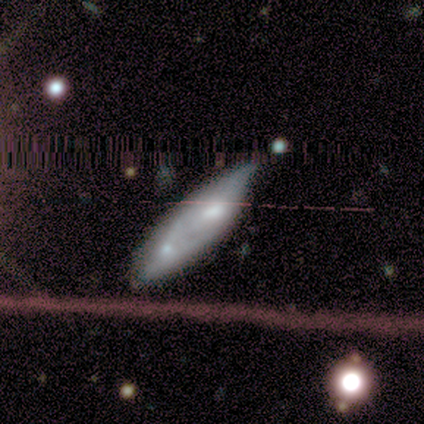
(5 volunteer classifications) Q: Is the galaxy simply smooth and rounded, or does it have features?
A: smooth — 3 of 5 (60%).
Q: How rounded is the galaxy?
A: in between — 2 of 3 (67%).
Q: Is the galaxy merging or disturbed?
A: merger — 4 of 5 (80%).